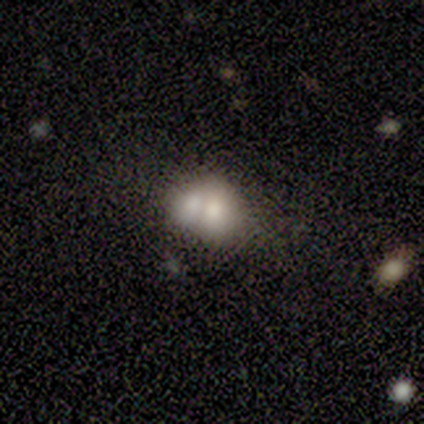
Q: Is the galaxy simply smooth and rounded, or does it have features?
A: smooth — 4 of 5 (80%).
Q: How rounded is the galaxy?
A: round — 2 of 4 (50%, tied with in between).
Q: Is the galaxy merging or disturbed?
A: none — 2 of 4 (50%, tied with merger).